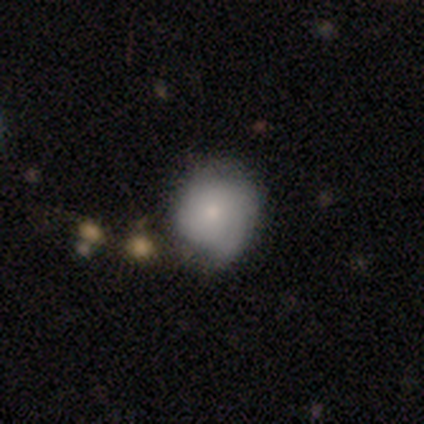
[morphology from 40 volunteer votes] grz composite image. It shows a smooth galaxy with no disk features (60%) that is round (92%). Merging: none (66%).